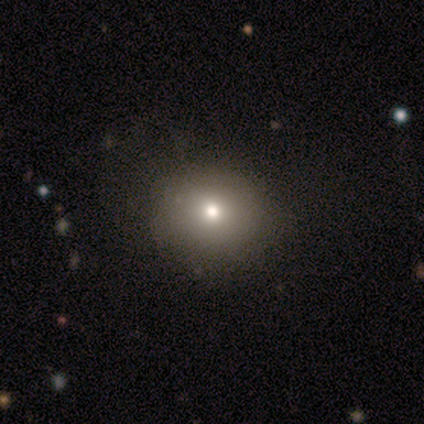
smooth_or_featured: smooth (p=0.60) [alt: featured or disk p=0.20]
how_rounded: in between (p=0.67) [alt: round p=0.33]
merging: none (p=0.75) [alt: minor disturbance p=0.25]